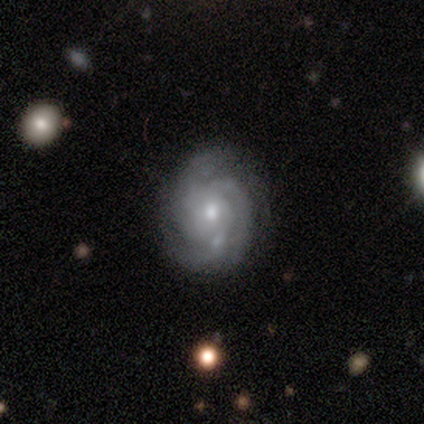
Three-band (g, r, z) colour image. It shows a featured or disk galaxy (97%) with no bar (86%), 3 (51%) tight (76%) spiral arms (100%) and a moderate central bulge (54%). Merging: none (76%).